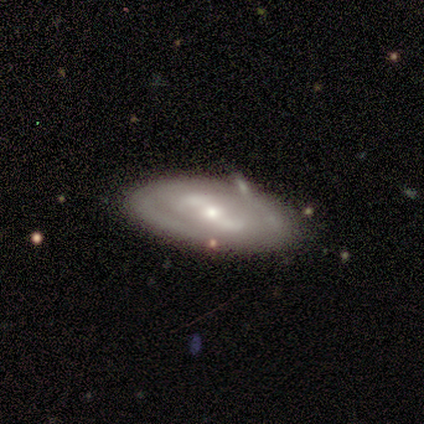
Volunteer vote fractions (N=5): Smooth or featured: featured or disk — 100%
Edge-on disk: no — 100%
Bar: weak — 80% (strong — 20%)
Spiral arms: yes — 60% (no — 40%)
Spiral winding: tight — 67% (medium — 33%)
Spiral arm count: 2 — 67% (can't tell — 33%)
Bulge size: small — 60% (moderate — 40%)
Merging: none — 60% (minor disturbance — 20%)